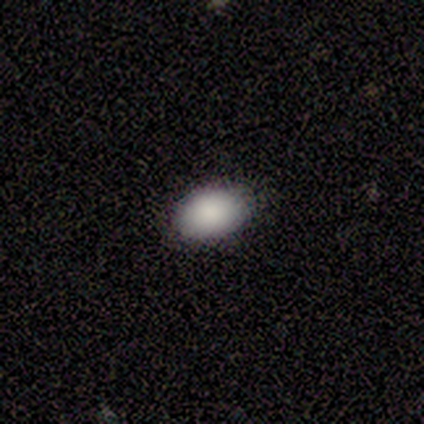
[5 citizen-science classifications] Smooth or featured?
  - smooth: 80% *
  - star or artifact: 20%
  - featured or disk: 0%
How rounded?
  - in between: 75% *
  - round: 25%
  - cigar-shaped: 0%
Merging?
  - none: 100% *
  - minor disturbance: 0%
  - major disturbance: 0%
  - merger: 0%